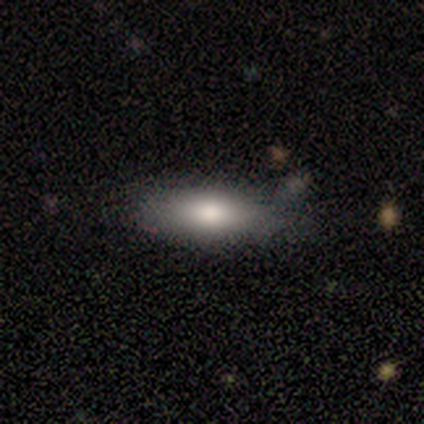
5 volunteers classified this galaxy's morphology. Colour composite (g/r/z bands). It shows a smooth galaxy with no disk features (100%) that is in between round and cigar-shaped (80%). Merging: none (100%).